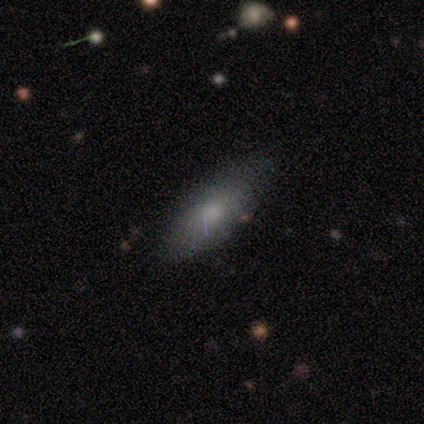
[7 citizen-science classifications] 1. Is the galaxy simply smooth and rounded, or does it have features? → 71% smooth, 29% featured or disk, 0% star or artifact.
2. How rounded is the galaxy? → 100% in between, 0% round, 0% cigar-shaped.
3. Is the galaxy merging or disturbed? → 100% none, 0% minor disturbance, 0% major disturbance, 0% merger.